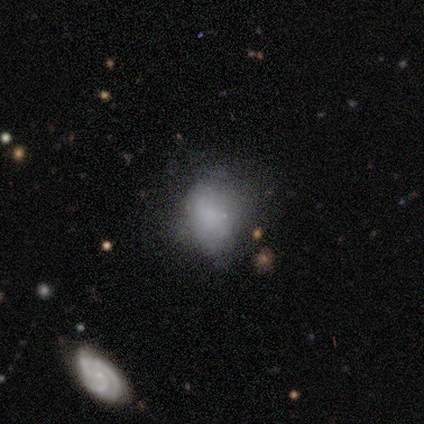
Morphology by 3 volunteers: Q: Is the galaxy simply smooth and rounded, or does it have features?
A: smooth — 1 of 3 (33%, tied with featured or disk and star or artifact).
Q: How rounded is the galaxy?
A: in between — 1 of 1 (100%).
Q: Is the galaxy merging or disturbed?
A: none — 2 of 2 (100%).